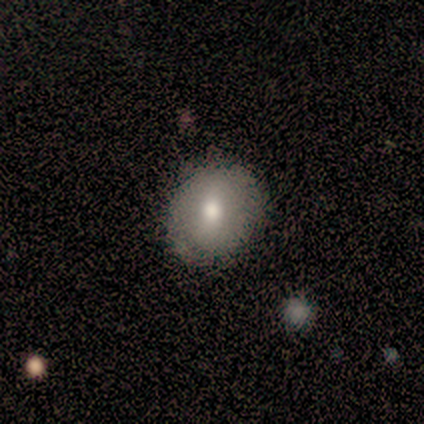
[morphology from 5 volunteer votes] This is clearly a smooth galaxy (100%). How rounded: likely round (60%). Merging: clearly none (100%).